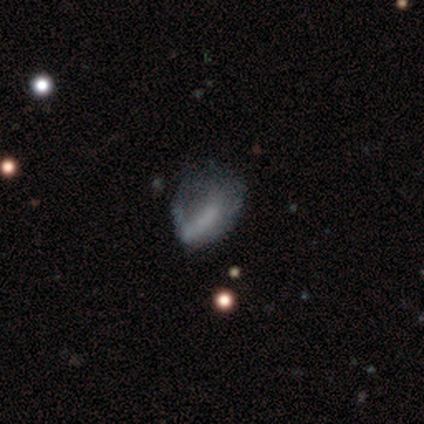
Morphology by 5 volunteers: A star or artifact, not a galaxy (60%).

Vote fractions:
- Smooth or featured? star or artifact: 60% / smooth: 40% / featured or disk: 0%